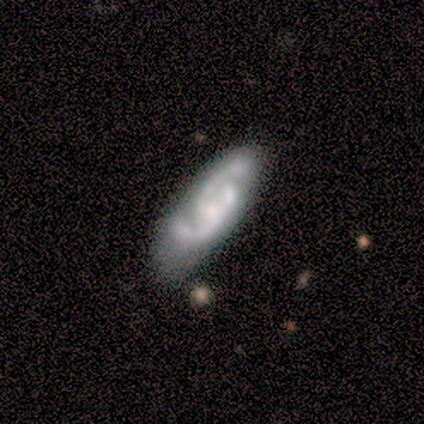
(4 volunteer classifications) Q: Smooth or featured?
A: featured or disk (75%); runner-up: star or artifact (25%)
Q: Edge-on disk?
A: no (100%)
Q: Bar?
A: strong (33%); tied with: weak (33%); no (33%)
Q: Spiral arms?
A: yes (100%)
Q: Spiral winding?
A: tight (33%); tied with: medium (33%); loose (33%)
Q: Spiral arm count?
A: 2 (67%); runner-up: can't tell (33%)
Q: Bulge size?
A: small (67%); runner-up: none (33%)
Q: Merging?
A: none (33%); tied with: minor disturbance (33%); merger (33%)